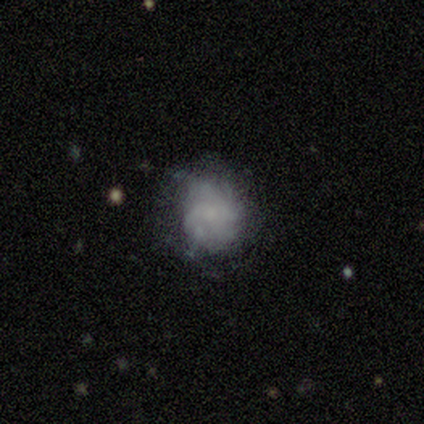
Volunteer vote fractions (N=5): Volunteers were most divided on "bulge size" (2-way tie): small: 50%, none: 50%, dominant: 0%, large: 0%, moderate: 0%. More confident: edge-on disk — no (100%); bar — no (100%); spiral arms — yes (100%); spiral winding — medium (100%); smooth or featured — featured or disk (80%); merging — none (80%); spiral arm count — 4 (50%).